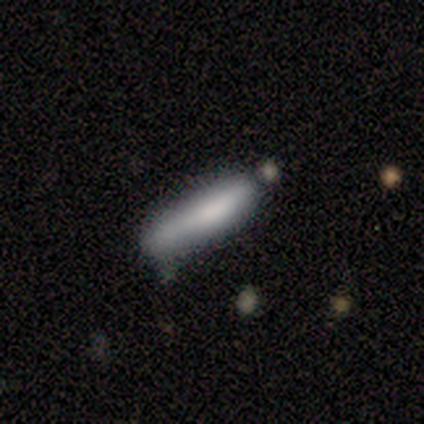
Smooth or featured?
  - smooth: 80% *
  - featured or disk: 20%
  - star or artifact: 0%
How rounded?
  - cigar-shaped: 100% *
  - round: 0%
  - in between: 0%
Merging?
  - none: 80% *
  - minor disturbance: 20%
  - major disturbance: 0%
  - merger: 0%